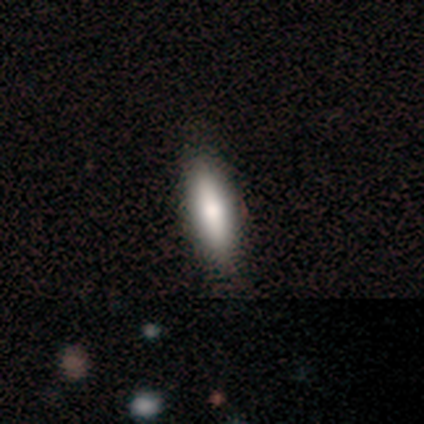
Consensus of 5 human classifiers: Overall: smooth (100%). How rounded: cigar-shaped (80%). Merging: none (80%).